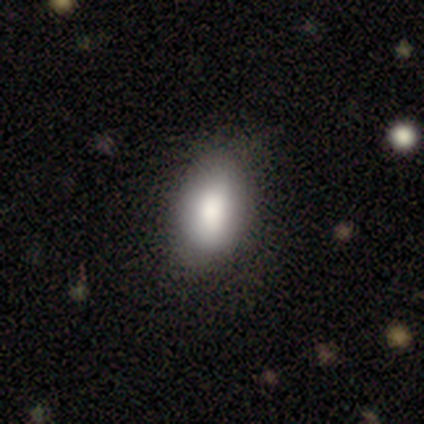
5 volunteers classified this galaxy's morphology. Smooth or featured? smooth (100%)
How rounded? in between (100%)
Merging? none (60%)